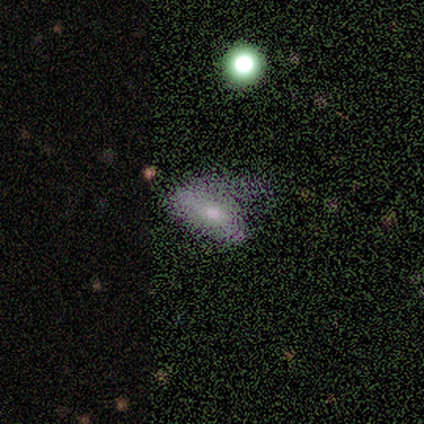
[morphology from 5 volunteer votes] Smooth or featured?
  - featured or disk: 60% *
  - smooth: 20%
  - star or artifact: 20%
Edge-on disk?
  - no: 100% *
  - yes: 0%
Bar?
  - no: 67% *
  - weak: 33%
  - strong: 0%
Spiral arms?
  - yes: 67% *
  - no: 33%
Spiral winding?
  - medium: 50% * (tied)
  - loose: 50% * (tied)
  - tight: 0%
Spiral arm count?
  - 1: 50% * (tied)
  - 2: 50% * (tied)
  - 3: 0%
  - 4: 0%
  - more than 4: 0%
  - can't tell: 0%
Bulge size?
  - moderate: 100% *
  - dominant: 0%
  - large: 0%
  - small: 0%
  - none: 0%
Merging?
  - major disturbance: 50% *
  - none: 25%
  - minor disturbance: 25%
  - merger: 0%